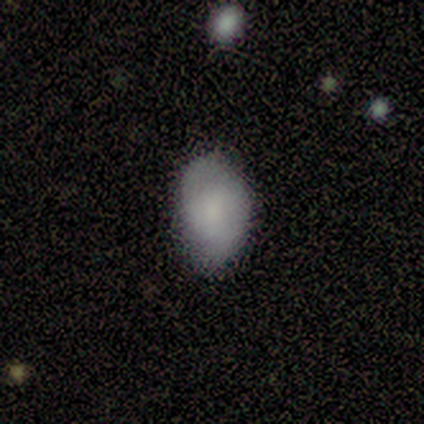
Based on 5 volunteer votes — This appears to be a smooth galaxy with no disk features (100%) that is in between round and cigar-shaped (100%). Merging: minor disturbance (60%).